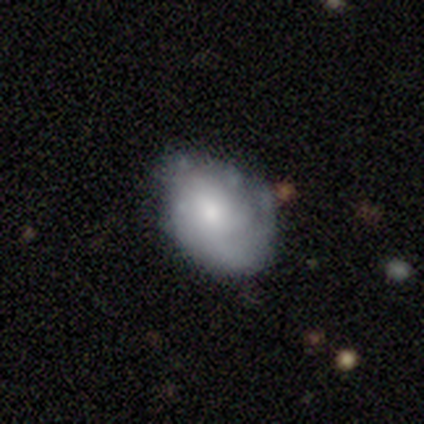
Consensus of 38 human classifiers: Smooth or featured: featured or disk — 50% (smooth — 37%)
Edge-on disk: no — 100%
Bar: no — 68% (weak — 32%)
Spiral arms: yes — 63% (no — 37%)
Spiral winding: tight — 67% (medium — 25%)
Spiral arm count: can't tell — 58% (2 — 25%)
Bulge size: moderate — 63% (small — 26%)
Merging: none — 64% (minor disturbance — 33%)